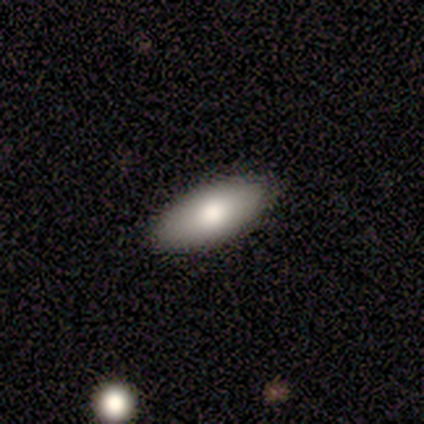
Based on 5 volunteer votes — smooth_or_featured: smooth (p=0.60) [alt: featured or disk p=0.40]
how_rounded: in between (p=1.00)
merging: none (p=1.00)